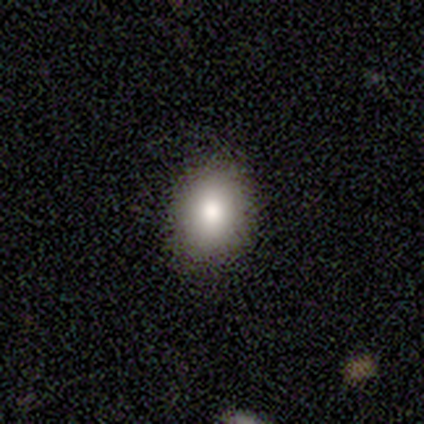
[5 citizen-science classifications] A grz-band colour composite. It shows a smooth galaxy with no disk features (80%) that is round (50%, tied with in between). Merging: none (75%).